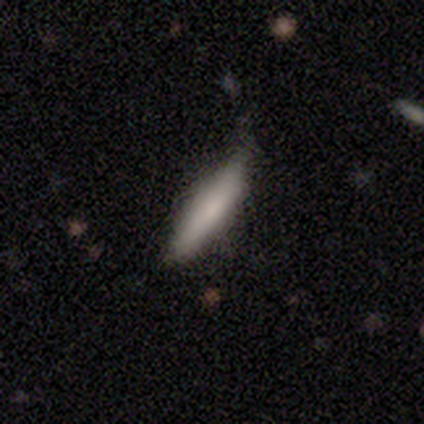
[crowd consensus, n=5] smooth-or-featured: smooth: 80% | featured or disk: 20% | star or artifact: 0%
  how-rounded: cigar-shaped: 100% | round: 0% | in between: 0%
  merging: none: 100% | minor disturbance: 0% | major disturbance: 0% | merger: 0%